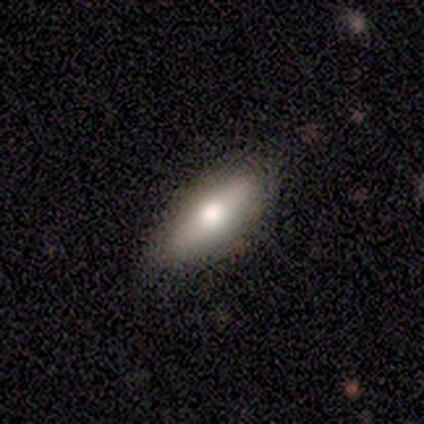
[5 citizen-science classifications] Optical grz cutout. It shows a smooth galaxy with no disk features (80%) that is in between round and cigar-shaped (75%). Merging: none (80%).